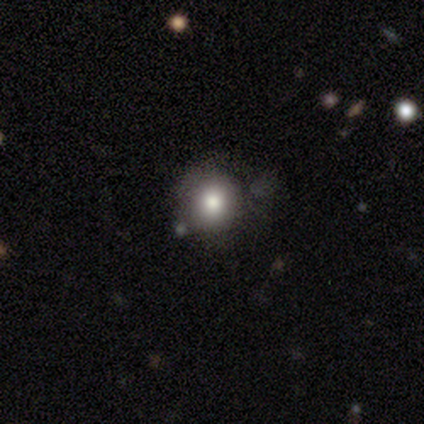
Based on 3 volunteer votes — Smooth or featured? 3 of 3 (100%) said smooth. How rounded? 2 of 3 (67%) said round. Merging? 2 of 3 (67%) said minor disturbance.